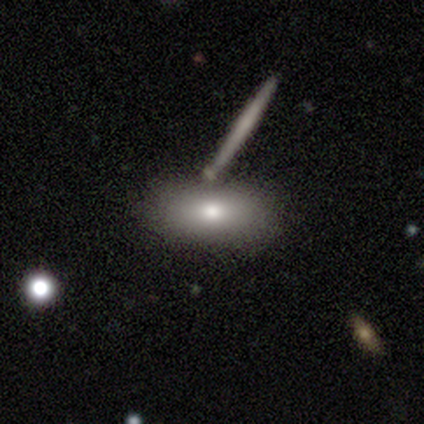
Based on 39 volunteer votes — Smooth or featured? 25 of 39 (64%) said smooth. How rounded? 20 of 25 (80%) said in between. Merging? 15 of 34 (44%) said none.